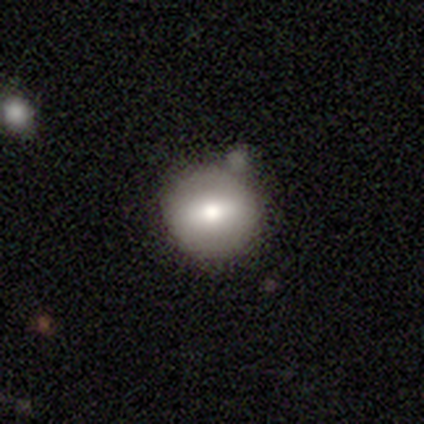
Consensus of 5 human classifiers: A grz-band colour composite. It shows a smooth galaxy with no disk features (60%) that is round (67%). Merging: none (80%).